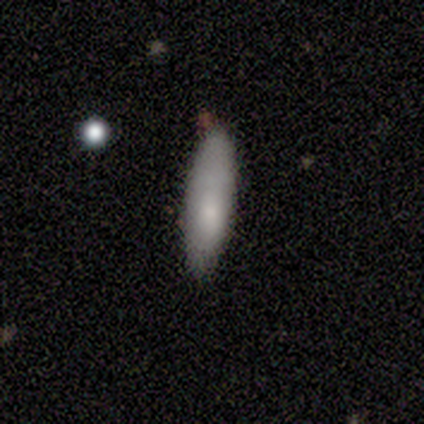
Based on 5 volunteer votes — Overall: smooth (80%). How rounded: in between (50%, tied with cigar-shaped). Merging: none (80%).